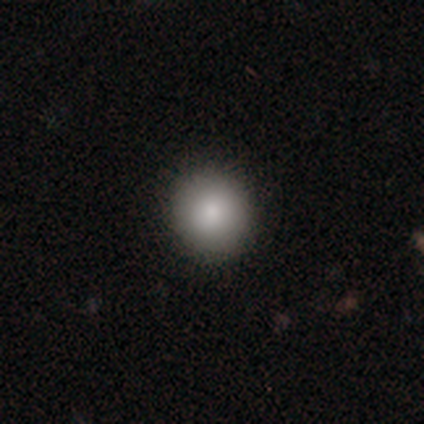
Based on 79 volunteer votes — Volunteers were most divided on "merging": none: 49%, minor disturbance: 3%, merger: 1%, major disturbance: 0%. More confident: smooth or featured — smooth (94%); how rounded — round (91%).